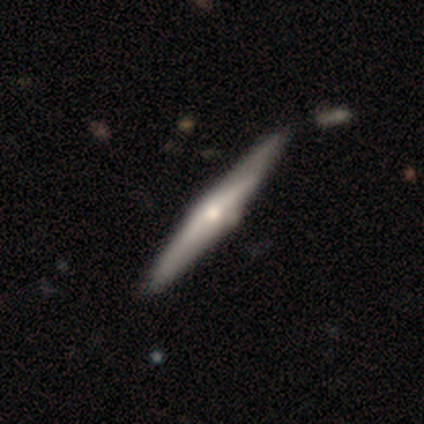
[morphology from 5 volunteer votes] type=featured or disk (60%); edge-on=yes (100%); edge-on bulge=rounded (100%); merging=none (67%).